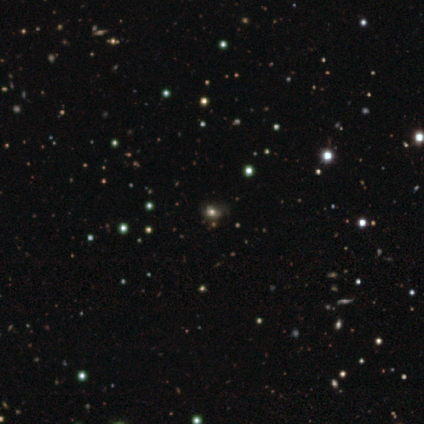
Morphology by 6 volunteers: star or artifact 50%, smooth 33%, featured or disk 17%.